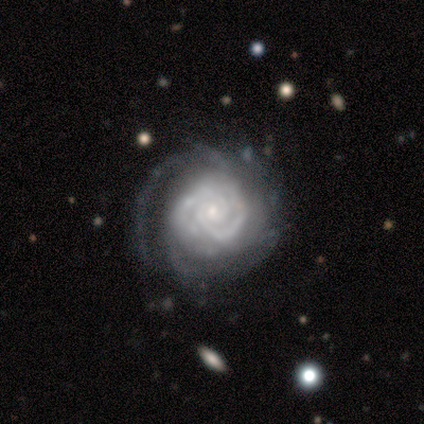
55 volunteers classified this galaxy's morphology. smooth-or-featured: featured or disk: 96% | smooth: 2% | star or artifact: 2%
  disk-edge-on: no: 96% | yes: 4%
    bar: no: 88% | weak: 10% | strong: 2%
    has-spiral-arms: yes: 100% | no: 0%
      spiral-winding: tight: 82% | medium: 16% | loose: 2%
      spiral-arm-count: 2: 43% | can't tell: 31% | 4: 12% | 3: 8% | more than 4: 4% | 1: 2%
    bulge-size: small: 90% | moderate: 6% | large: 2% | none: 2% | dominant: 0%
  merging: none: 67% | minor disturbance: 17% | major disturbance: 15% | merger: 2%